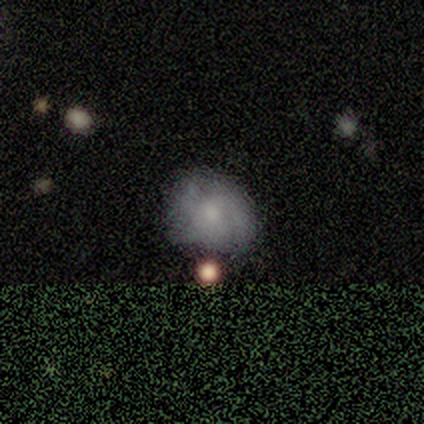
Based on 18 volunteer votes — This appears to be a featured or disk galaxy (50%) with no bar (78%), tight (57%) spiral arms (78%) and a moderate central bulge (56%). Merging: minor disturbance (50%).